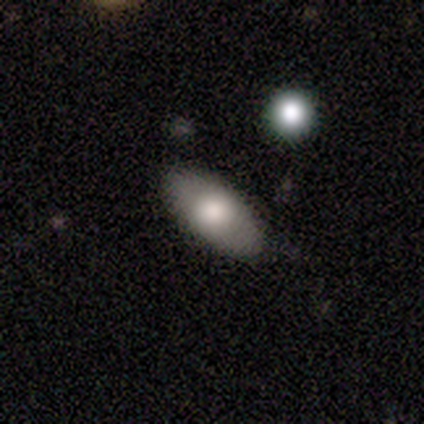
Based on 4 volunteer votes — Smooth or featured? 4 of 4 (100%) said smooth. How rounded? 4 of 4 (100%) said in between. Merging? 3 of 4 (75%) said none.